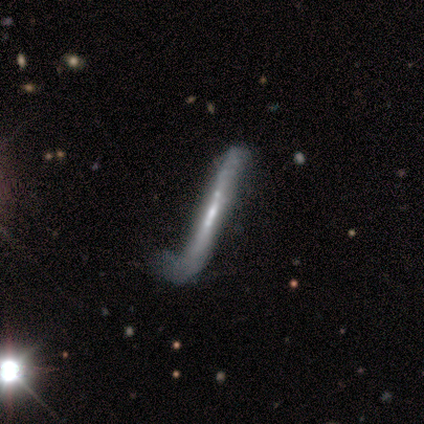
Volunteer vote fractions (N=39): Smooth or featured? 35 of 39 (90%) said featured or disk. Edge-on disk? 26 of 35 (74%) said yes. Edge-on bulge? 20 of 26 (77%) said none. Merging? 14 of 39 (36%) said major disturbance.